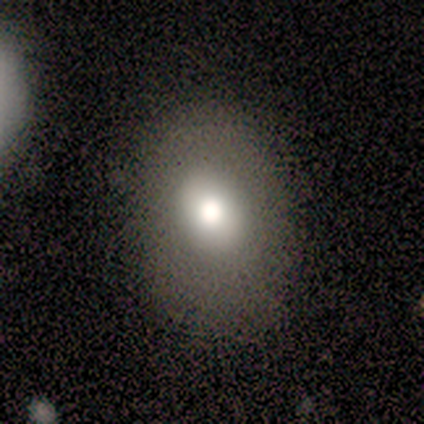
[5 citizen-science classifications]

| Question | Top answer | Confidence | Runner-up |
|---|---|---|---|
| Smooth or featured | smooth | 100% | — |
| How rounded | round | 60% | in between (40%) |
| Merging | none | 40% | tied: major disturbance (40%) |